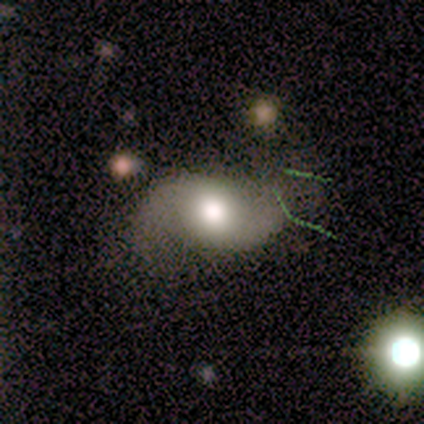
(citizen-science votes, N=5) This appears to be a featured or disk galaxy (100%) with a strong bar (40%, tied with no), 2 (100%) loose (80%) spiral arms (100%) and a moderate central bulge (60%). Merging: none (60%).